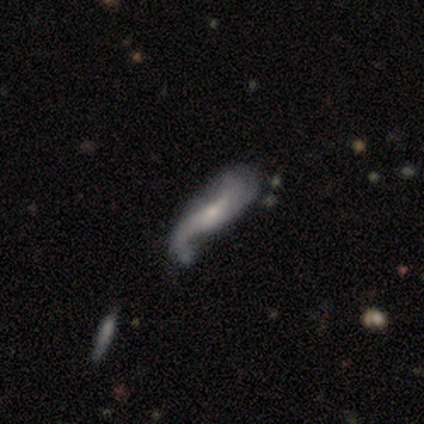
A featured or disk galaxy (74%) with a weak bar (50%), 2 (72%) loose (96%) spiral arms (96%) and a small central bulge (85%). Merging: major disturbance (28%).